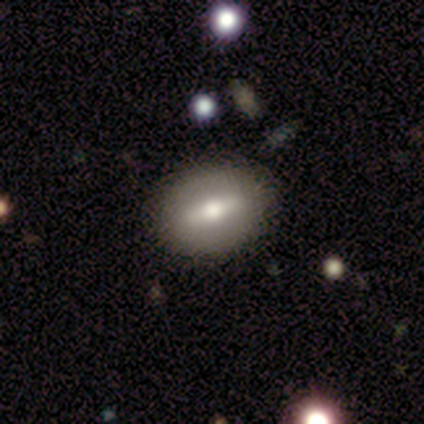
This is likely a featured or disk galaxy (60%). It is clearly not viewed edge-on (100%). Bar: likely weak (67%). Spiral arm pattern: clearly no (100%). Central bulge: clearly moderate (100%). Merging: clearly none (100%).